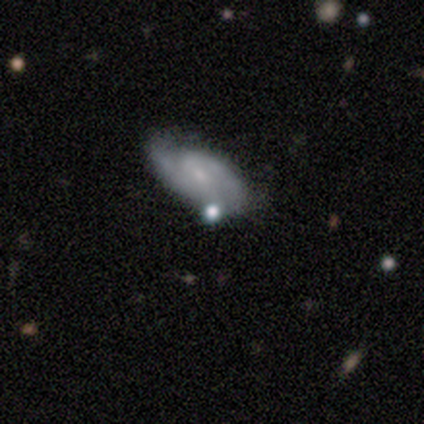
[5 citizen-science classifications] A featured or disk galaxy (60%) with no bar (67%), 2 (67%) medium (67%) spiral arms (100%) and a small central bulge (67%). Merging: none (60%).